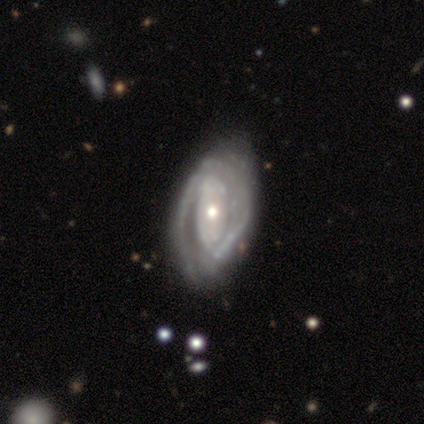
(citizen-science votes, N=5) This appears to be a featured or disk galaxy (100%) with no bar (80%), 2 (50%) medium (75%) spiral arms (80%) and a moderate central bulge (80%). Merging: none (40%, tied with minor disturbance).